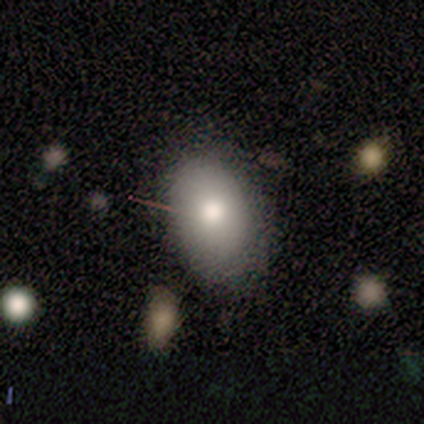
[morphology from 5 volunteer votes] This is likely a smooth galaxy (60%). How rounded: clearly in between (100%). Merging: clearly none (100%).